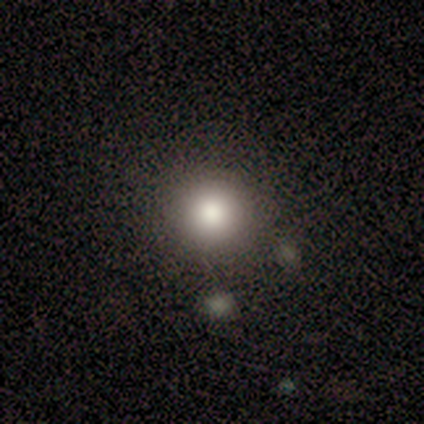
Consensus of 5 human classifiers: smooth_or_featured: smooth (p=0.80) [alt: featured or disk p=0.20]
how_rounded: round (p=1.00)
merging: none (p=0.80) [alt: minor disturbance p=0.20]